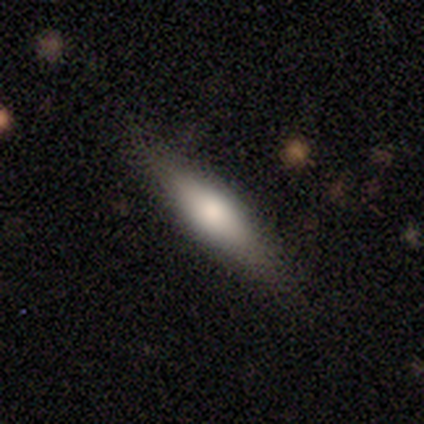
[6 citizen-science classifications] smooth_or_featured: smooth (p=0.33) [tied with: featured or disk p=0.33, star or artifact p=0.33]
how_rounded: round (p=0.50) [tied with: cigar-shaped p=0.50]
merging: none (p=0.75) [alt: minor disturbance p=0.25]